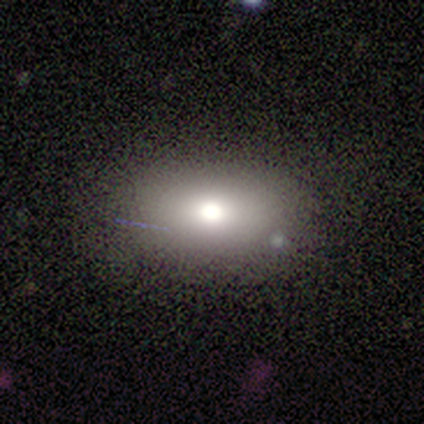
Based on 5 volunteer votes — Volunteers were most divided on "smooth or featured": smooth: 80%, star or artifact: 20%, featured or disk: 0%. More confident: how rounded — in between (100%); merging — none (100%).